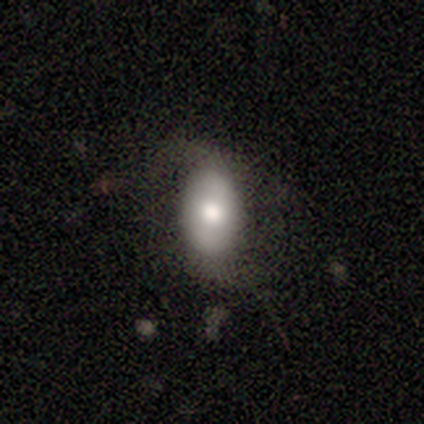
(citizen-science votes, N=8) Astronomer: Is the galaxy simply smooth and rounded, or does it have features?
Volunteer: smooth — 75%.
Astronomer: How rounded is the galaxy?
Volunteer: in between — 100%.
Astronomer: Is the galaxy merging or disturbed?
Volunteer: none — 50%, tied with minor disturbance at 50%.